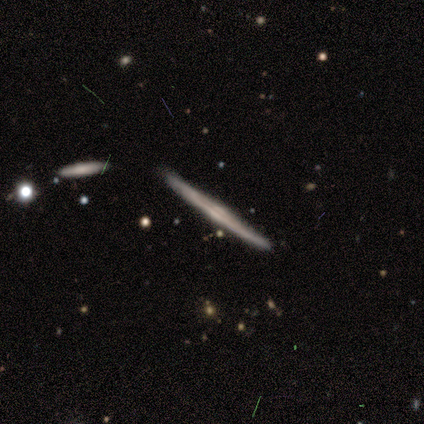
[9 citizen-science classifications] smooth-or-featured: featured or disk: 78% | smooth: 22% | star or artifact: 0%
  disk-edge-on: yes: 100% | no: 0%
    edge-on-bulge: rounded: 100% | boxy: 0% | none: 0%
  merging: none: 89% | minor disturbance: 11% | major disturbance: 0% | merger: 0%